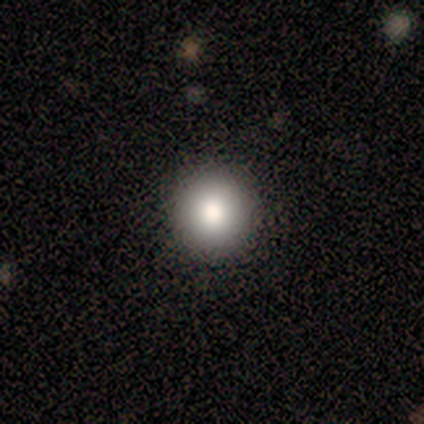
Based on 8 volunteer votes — A smooth galaxy with no disk features (88%) that is round (86%). Merging: none (86%).